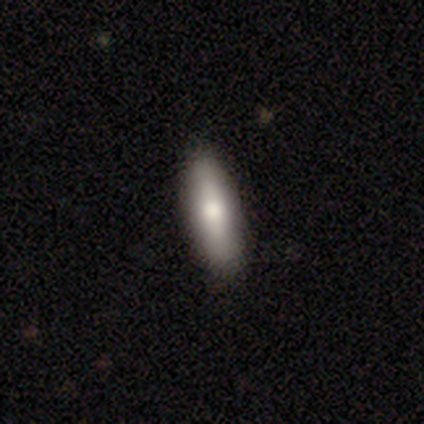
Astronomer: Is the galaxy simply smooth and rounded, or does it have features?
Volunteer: smooth — 74%.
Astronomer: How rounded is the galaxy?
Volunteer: cigar-shaped — 64%.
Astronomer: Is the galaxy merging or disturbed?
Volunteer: none — 86%.